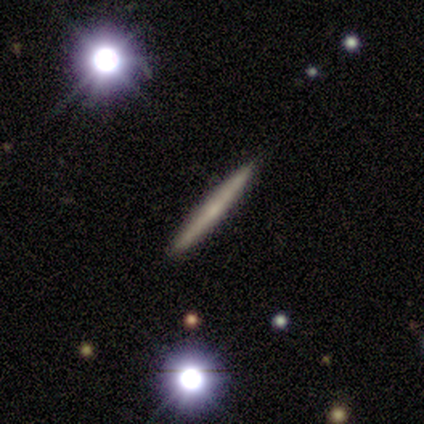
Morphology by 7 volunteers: Overall: smooth (57%; featured or disk 43%). How rounded: cigar-shaped (75%). Merging: none (71%).